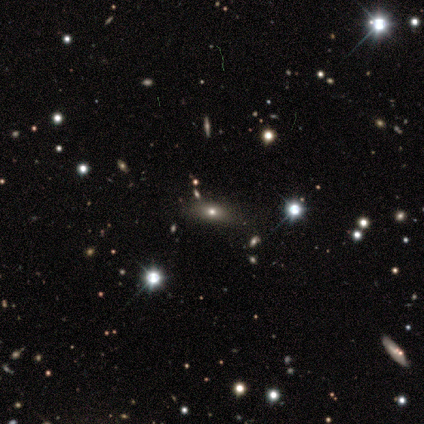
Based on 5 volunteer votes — smooth 40% (tied), featured or disk 40% (tied), star or artifact 20%. Down the decision tree: how rounded — in between (100%); merging — none (100%).